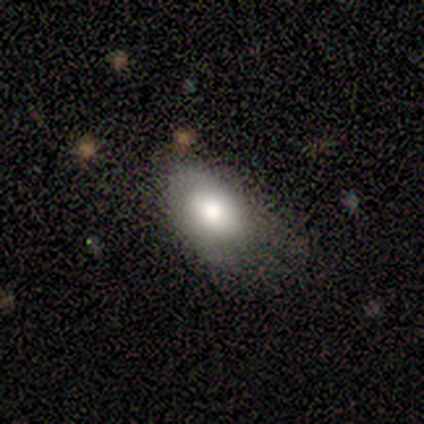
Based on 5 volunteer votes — Smooth or featured? 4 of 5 (80%) said smooth. How rounded? 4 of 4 (100%) said in between. Merging? 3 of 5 (60%) said none.